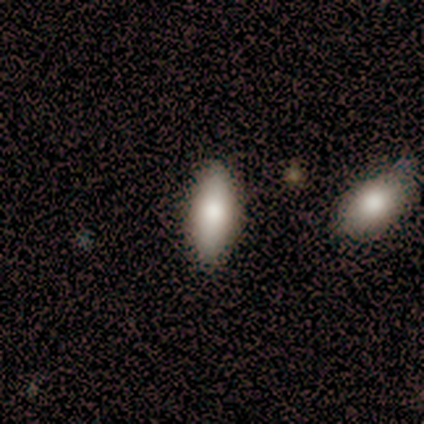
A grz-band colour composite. It shows a smooth galaxy with no disk features (79%) that is in between round and cigar-shaped (81%). Merging: none (82%).